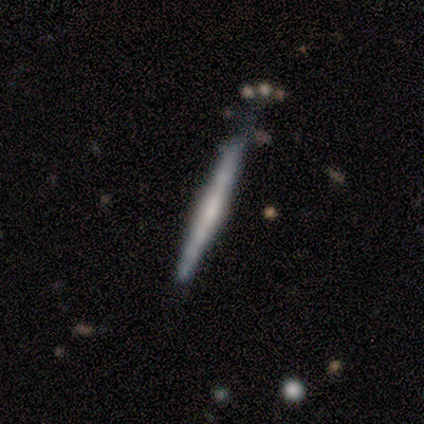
Smooth or featured?
  - featured or disk: 80% *
  - smooth: 20%
  - star or artifact: 0%
Edge-on disk?
  - yes: 100% *
  - no: 0%
Edge-on bulge?
  - rounded: 50% *
  - boxy: 25%
  - none: 25%
Merging?
  - none: 60% *
  - minor disturbance: 40%
  - major disturbance: 0%
  - merger: 0%